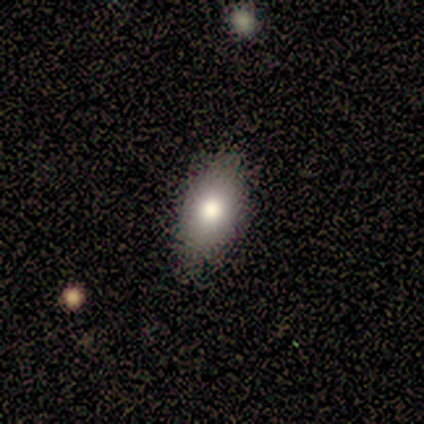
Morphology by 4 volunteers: Smooth or featured? 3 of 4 (75%) said smooth. How rounded? 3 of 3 (100%) said in between. Merging? 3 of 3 (100%) said none.